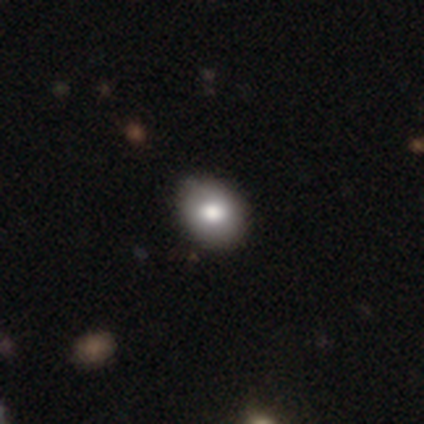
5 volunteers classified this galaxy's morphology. A smooth galaxy with no disk features (80%) that is in between round and cigar-shaped (75%).

Vote fractions:
- Smooth or featured? smooth: 80% / featured or disk: 20% / star or artifact: 0%
- How rounded? in between: 75% / round: 25% / cigar-shaped: 0%
- Merging? none: 80% / minor disturbance: 20% / major disturbance: 0% / merger: 0%